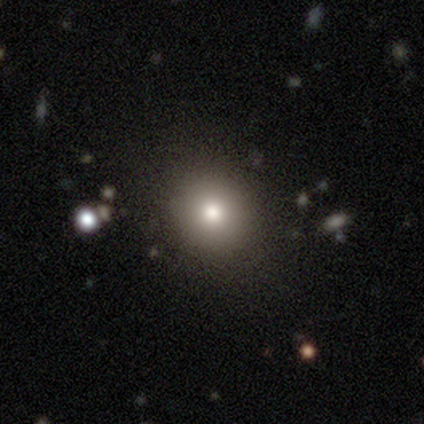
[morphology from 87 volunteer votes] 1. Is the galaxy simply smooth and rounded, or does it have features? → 70% smooth, 23% star or artifact, 7% featured or disk.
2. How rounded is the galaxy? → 80% round, 20% in between, 0% cigar-shaped.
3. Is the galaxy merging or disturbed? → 93% none, 6% minor disturbance, 1% major disturbance, 0% merger.